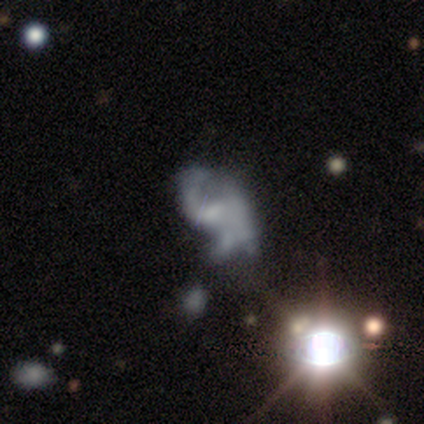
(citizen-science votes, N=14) A featured or disk galaxy (64%) with no bar (56%), loose (80%) spiral arms (56%) and no central bulge (56%). Merging: none (36%).